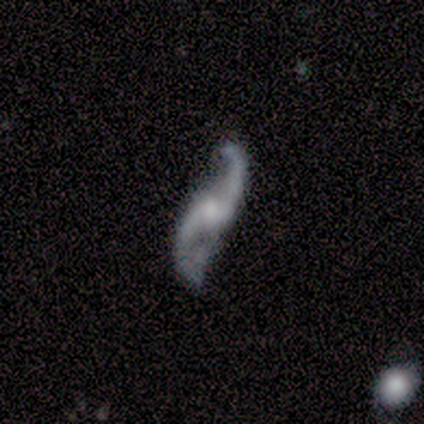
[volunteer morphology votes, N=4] This appears to be a featured or disk galaxy (75%) with no bar (67%), 2 (100%) loose (100%) spiral arms (100%) and a small central bulge (100%). Merging: none (67%).